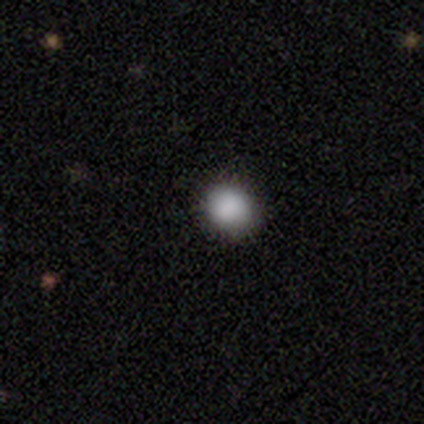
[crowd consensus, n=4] This appears to be a smooth galaxy with no disk features (100%) that is round (100%). Merging: none (100%).